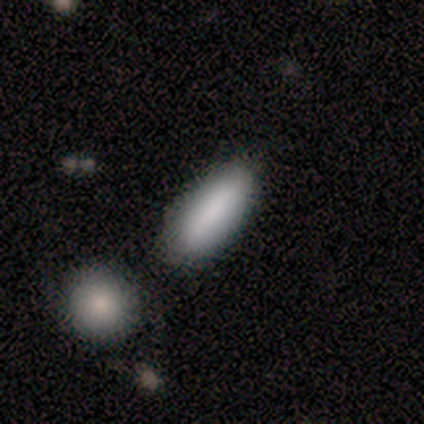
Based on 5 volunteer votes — smooth-or-featured: smooth: 100% | featured or disk: 0% | star or artifact: 0%
  how-rounded: in between: 80% | cigar-shaped: 20% | round: 0%
  merging: none: 100% | minor disturbance: 0% | major disturbance: 0% | merger: 0%